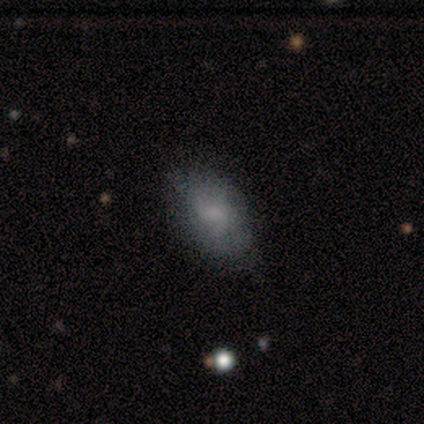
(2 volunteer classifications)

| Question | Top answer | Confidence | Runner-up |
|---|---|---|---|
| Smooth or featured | smooth | 100% | — |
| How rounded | in between | 100% | — |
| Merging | none | 100% | — |